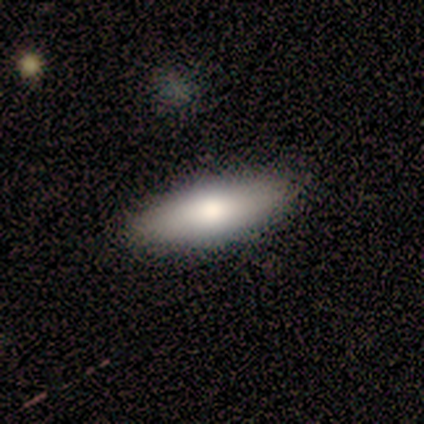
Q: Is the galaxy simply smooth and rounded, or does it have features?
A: smooth — 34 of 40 (85%).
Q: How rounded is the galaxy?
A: in between — 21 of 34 (62%).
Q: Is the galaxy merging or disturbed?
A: none — 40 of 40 (100%).